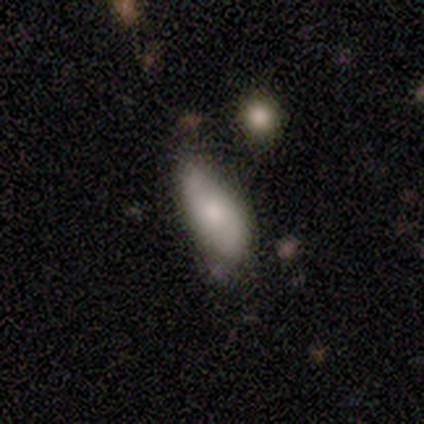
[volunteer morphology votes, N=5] smooth_or_featured: smooth (p=0.80) [alt: featured or disk p=0.20]
how_rounded: in between (p=0.75) [alt: cigar-shaped p=0.25]
merging: none (p=0.60) [alt: minor disturbance p=0.20]